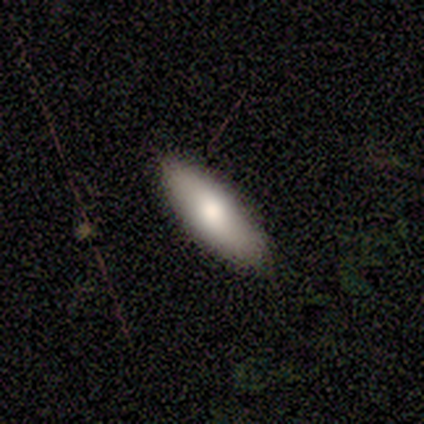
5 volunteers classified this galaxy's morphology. Smooth or featured: smooth — 100%
How rounded: in between — 60% (cigar-shaped — 40%)
Merging: none — 60% (minor disturbance — 40%)